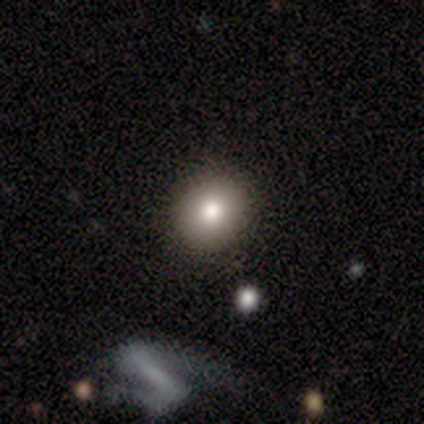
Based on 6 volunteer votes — A smooth galaxy with no disk features (100%) that is round (100%). Merging: none (100%).